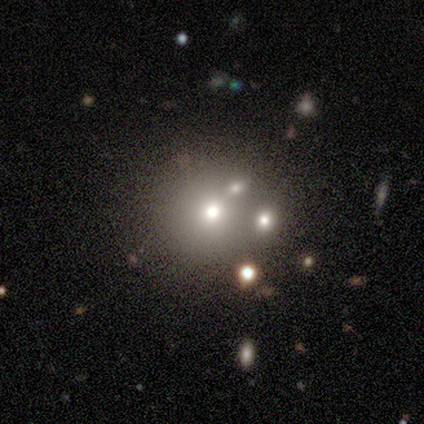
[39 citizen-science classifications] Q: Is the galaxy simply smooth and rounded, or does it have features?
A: smooth — 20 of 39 (51%).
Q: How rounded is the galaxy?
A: round — 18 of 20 (90%).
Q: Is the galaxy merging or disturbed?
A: none — 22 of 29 (76%).